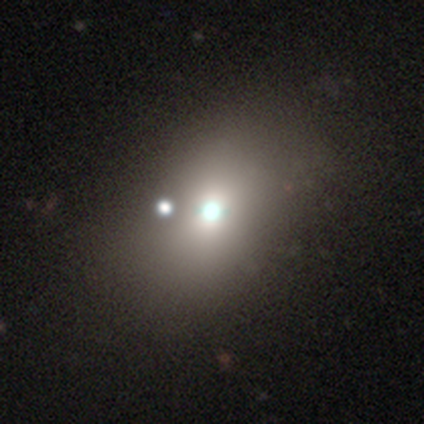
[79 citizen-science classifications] Smooth or featured? 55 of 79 (70%) said smooth. How rounded? 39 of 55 (71%) said in between. Merging? 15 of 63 (24%) said none.